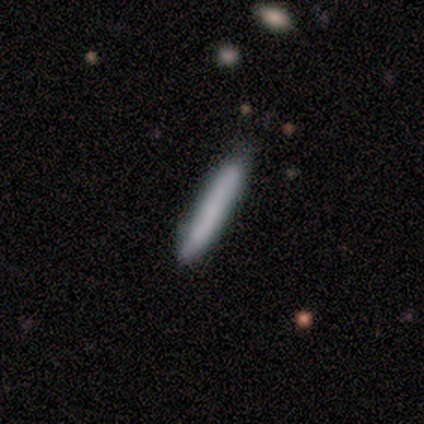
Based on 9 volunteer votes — Smooth or featured? smooth (67%)
How rounded? cigar-shaped (100%)
Merging? none (78%)